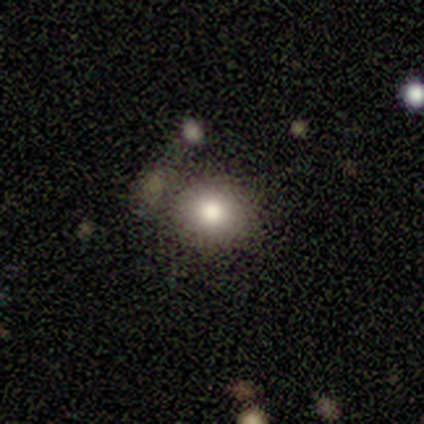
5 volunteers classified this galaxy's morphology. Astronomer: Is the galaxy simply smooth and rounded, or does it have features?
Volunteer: smooth — 100%.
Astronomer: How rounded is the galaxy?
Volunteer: round — 100%.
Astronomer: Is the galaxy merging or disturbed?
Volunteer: none — 60%.